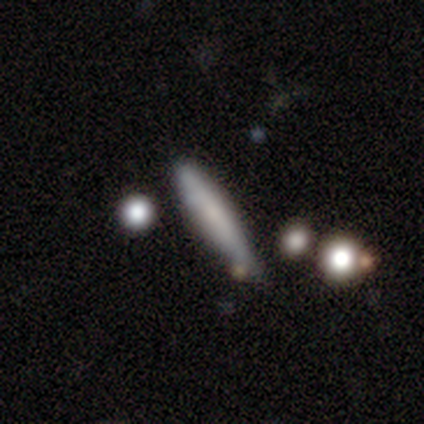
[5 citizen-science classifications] Q: Smooth or featured?
A: smooth (80%); runner-up: featured or disk (20%)
Q: How rounded?
A: cigar-shaped (100%)
Q: Merging?
A: none (40%); tied with: minor disturbance (40%)